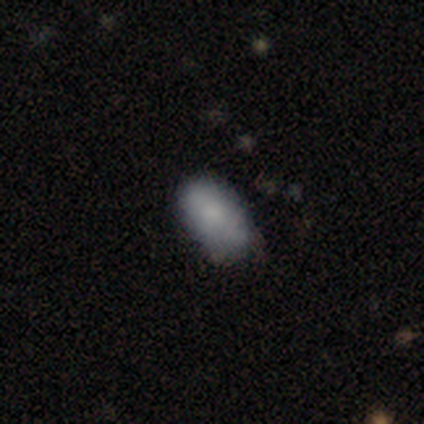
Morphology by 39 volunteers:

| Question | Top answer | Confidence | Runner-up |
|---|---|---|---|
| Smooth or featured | smooth | 74% | featured or disk (15%) |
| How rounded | in between | 93% | round (7%) |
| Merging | none | 66% | minor disturbance (29%) |